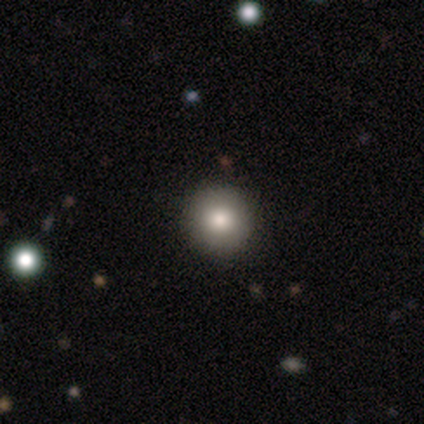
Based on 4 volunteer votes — Q: Smooth or featured?
A: smooth (75%); runner-up: featured or disk (25%)
Q: How rounded?
A: round (100%)
Q: Merging?
A: none (100%)